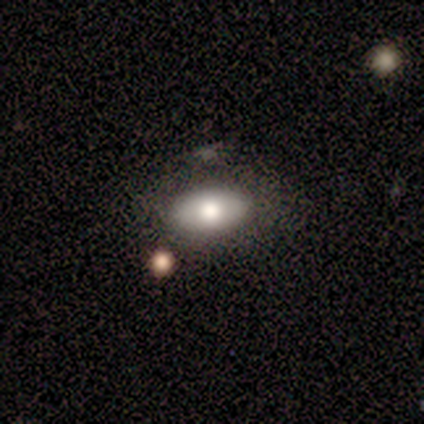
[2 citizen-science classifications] Smooth or featured: smooth — 100%
How rounded: in between — 100%
Merging: none — 50% (tied with merger — 50%)